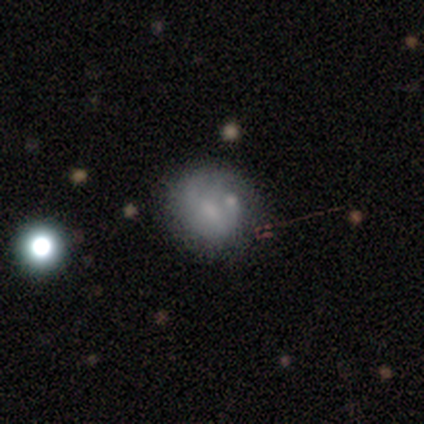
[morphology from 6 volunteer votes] Smooth or featured? featured or disk (67%)
Edge-on disk? no (100%)
Bar? no (75%)
Spiral arms? no (75%)
Bulge size? small (75%)
Merging? none (67%)